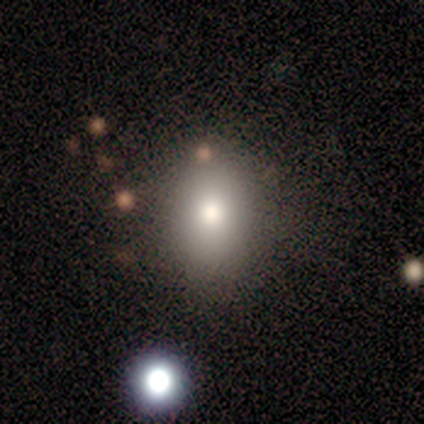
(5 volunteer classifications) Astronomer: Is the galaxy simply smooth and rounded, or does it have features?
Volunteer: smooth — 100%.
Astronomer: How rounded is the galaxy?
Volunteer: in between — 60% (runner-up: round, 40%).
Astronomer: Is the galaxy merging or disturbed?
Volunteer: none — 80%.